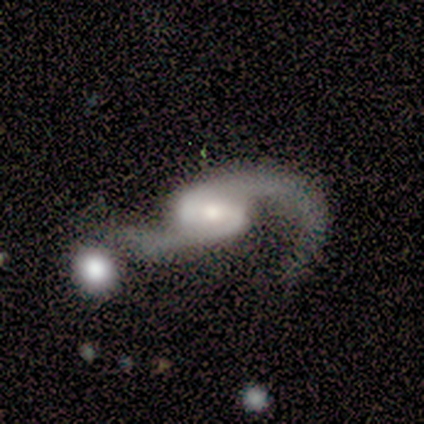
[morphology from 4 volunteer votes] featured or disk 100%, smooth 0%, star or artifact 0%. Down the decision tree: edge-on disk — no (100%); bar — weak (75%); spiral arms — yes (100%); spiral arm count — 2 (75%); spiral winding — loose (75%); bulge size — moderate (75%); merging — merger (50%).